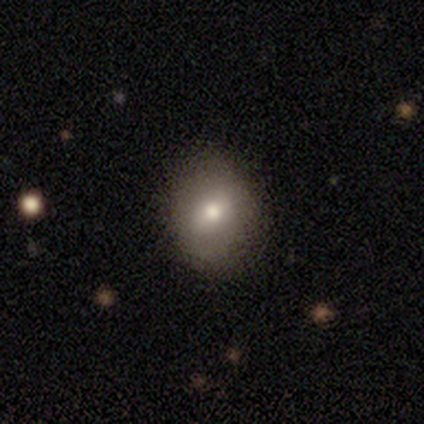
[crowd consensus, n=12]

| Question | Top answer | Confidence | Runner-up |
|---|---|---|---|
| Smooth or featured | smooth | 67% | featured or disk (17%) |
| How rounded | round | 50% | tied: in between (50%) |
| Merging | none | 100% | — |